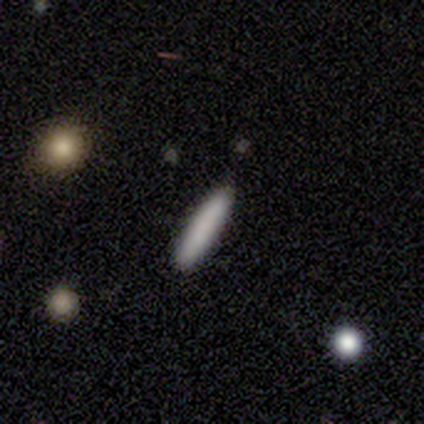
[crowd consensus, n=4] smooth_or_featured: smooth (p=0.75) [alt: featured or disk p=0.25]
how_rounded: cigar-shaped (p=1.00)
merging: none (p=0.75) [alt: minor disturbance p=0.25]